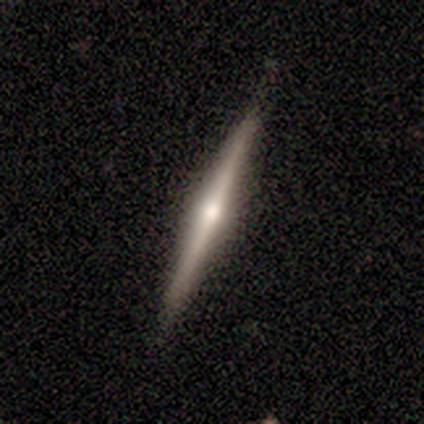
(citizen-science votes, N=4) smooth-or-featured: featured or disk: 75% | smooth: 25% | star or artifact: 0%
  disk-edge-on: yes: 100% | no: 0%
    edge-on-bulge: rounded: 67% | none: 33% | boxy: 0%
  merging: none: 50% | minor disturbance: 25% | merger: 25% | major disturbance: 0%